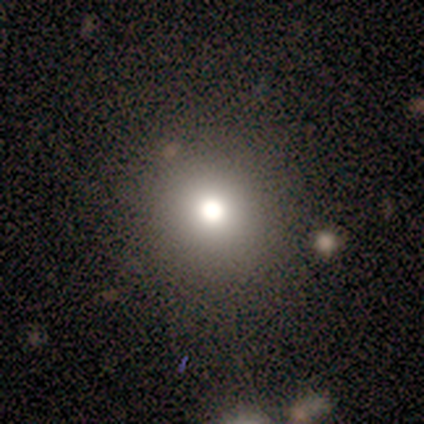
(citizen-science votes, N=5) smooth 80%, featured or disk 20%, star or artifact 0%. Down the decision tree: how rounded — round (100%); merging — none (80%).